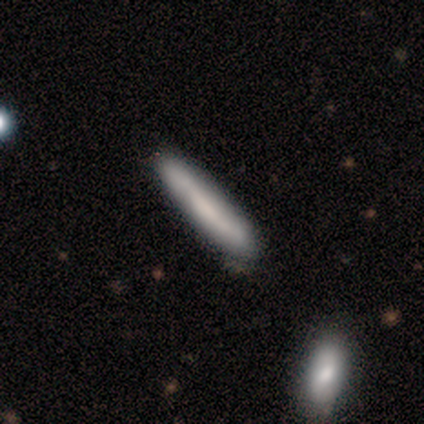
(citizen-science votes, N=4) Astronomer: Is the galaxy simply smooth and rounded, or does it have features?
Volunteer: smooth — 75%.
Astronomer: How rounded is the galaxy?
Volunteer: cigar-shaped — 100%.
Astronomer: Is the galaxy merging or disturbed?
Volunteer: none — 75%.